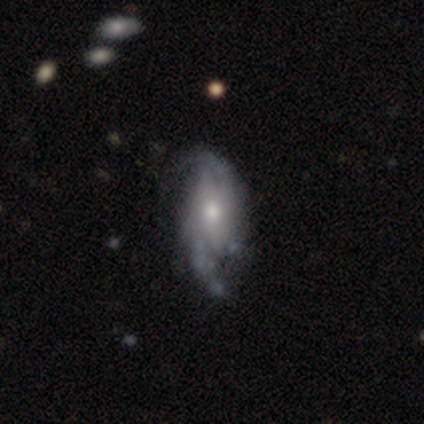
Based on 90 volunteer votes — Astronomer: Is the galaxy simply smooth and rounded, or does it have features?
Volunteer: featured or disk — 84%.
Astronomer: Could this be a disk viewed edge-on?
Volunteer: no — 93%.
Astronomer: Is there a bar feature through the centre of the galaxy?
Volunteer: no — 56%.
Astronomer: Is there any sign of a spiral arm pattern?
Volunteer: yes — 80%.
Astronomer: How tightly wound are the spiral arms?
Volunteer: tight — 42% (runner-up: loose, 32%).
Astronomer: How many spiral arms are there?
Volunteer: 2 — 89%.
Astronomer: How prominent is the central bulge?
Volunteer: moderate — 49% (runner-up: small, 41%).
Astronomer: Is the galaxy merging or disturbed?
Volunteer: none — 50% (runner-up: minor disturbance, 31%).